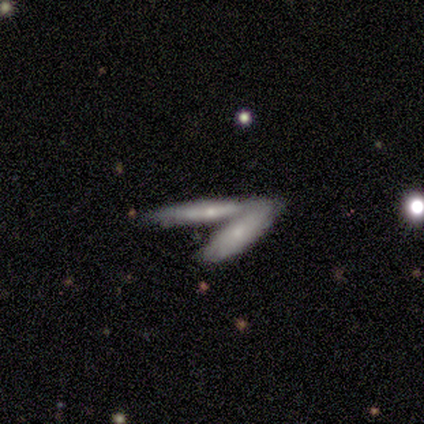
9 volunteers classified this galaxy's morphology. Overall: featured or disk (78%). Edge-on disk: yes (71%). Edge-on bulge: rounded (80%). Merging: merger (67%).